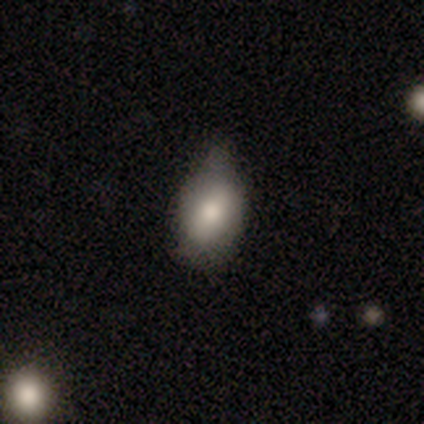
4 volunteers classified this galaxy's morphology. Volunteers were most divided on "smooth or featured": smooth: 50%, featured or disk: 25%, star or artifact: 25%. More confident: how rounded — in between (100%); merging — none (67%).